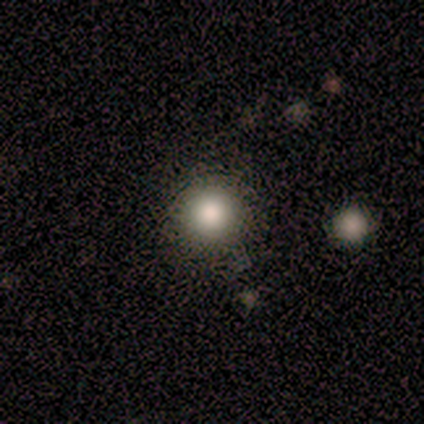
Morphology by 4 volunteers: type=smooth (100%); roundness=round (100%); merging=none (100%).